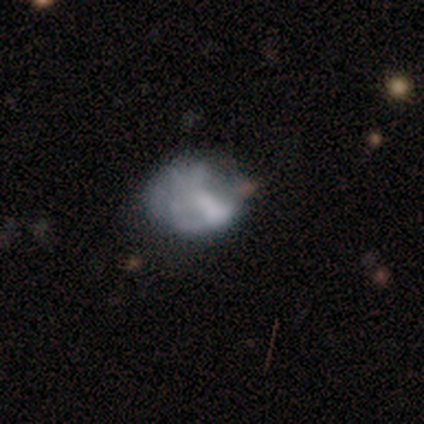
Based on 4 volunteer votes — Smooth or featured: featured or disk — 75% (smooth — 25%)
Edge-on disk: no — 100%
Bar: no — 67% (weak — 33%)
Spiral arms: no — 100%
Bulge size: moderate — 33% (tied with small — 33%; none — 33%)
Merging: minor disturbance — 50% (major disturbance — 25%)